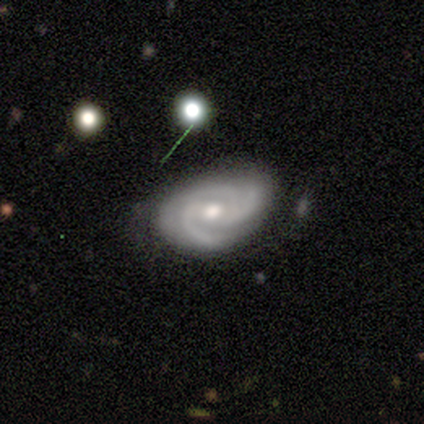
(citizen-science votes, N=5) Smooth or featured? 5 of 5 (100%) said featured or disk. Edge-on disk? 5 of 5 (100%) said no. Bar? 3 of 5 (60%) said no. Spiral arms? 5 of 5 (100%) said yes. Spiral winding? 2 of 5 (40%, tied with loose) said medium. Spiral arm count? 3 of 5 (60%) said 3. Bulge size? 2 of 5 (40%, tied with small) said moderate. Merging? 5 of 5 (100%) said none.